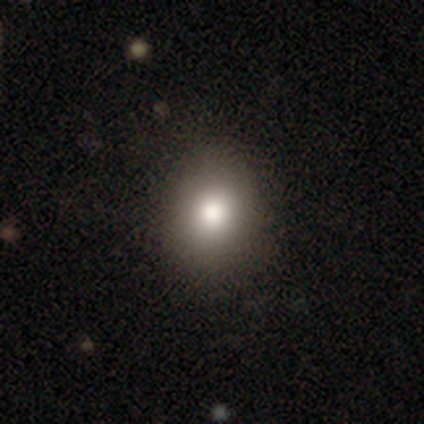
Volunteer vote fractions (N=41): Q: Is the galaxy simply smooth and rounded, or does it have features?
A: smooth — 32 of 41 (78%).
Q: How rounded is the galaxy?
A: in between — 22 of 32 (69%).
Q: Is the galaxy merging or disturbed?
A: none — 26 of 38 (68%).